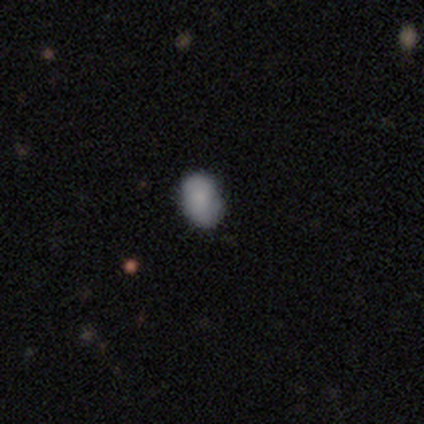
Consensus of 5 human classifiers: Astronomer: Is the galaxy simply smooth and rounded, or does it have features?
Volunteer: smooth — 80%.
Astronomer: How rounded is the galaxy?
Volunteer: round — 50%, tied with in between at 50%.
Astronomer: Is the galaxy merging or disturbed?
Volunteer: none — 100%.